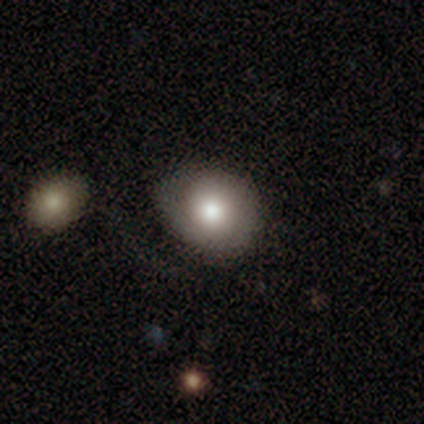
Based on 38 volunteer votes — A smooth galaxy with no disk features (58%) that is round (59%). Merging: none (56%).